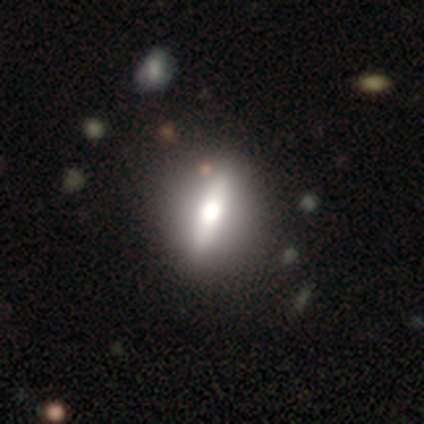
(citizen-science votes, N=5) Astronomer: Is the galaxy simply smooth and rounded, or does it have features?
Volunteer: featured or disk — 80%.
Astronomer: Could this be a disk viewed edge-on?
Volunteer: yes — 50%, tied with no at 50%.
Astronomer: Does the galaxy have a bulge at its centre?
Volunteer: rounded — 100%.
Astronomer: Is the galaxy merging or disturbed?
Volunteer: none — 50%.